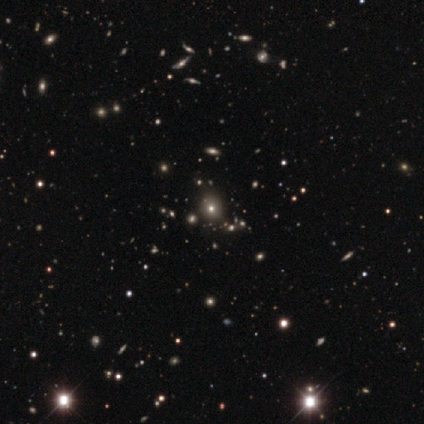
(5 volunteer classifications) This appears to be a smooth galaxy with no disk features (60%) that is round (67%). Merging: none (33%, tied with minor disturbance and merger).